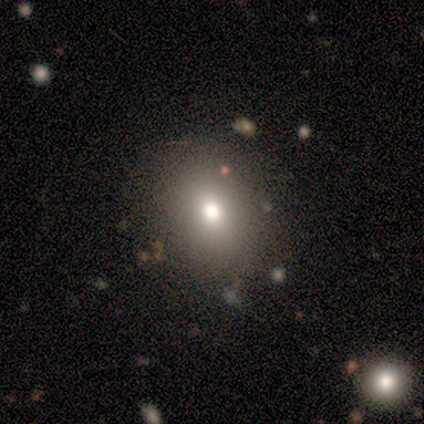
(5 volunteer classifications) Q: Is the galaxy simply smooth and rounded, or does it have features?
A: smooth — 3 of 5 (60%).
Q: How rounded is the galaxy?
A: in between — 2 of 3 (67%).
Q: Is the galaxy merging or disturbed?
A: none — 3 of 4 (75%).